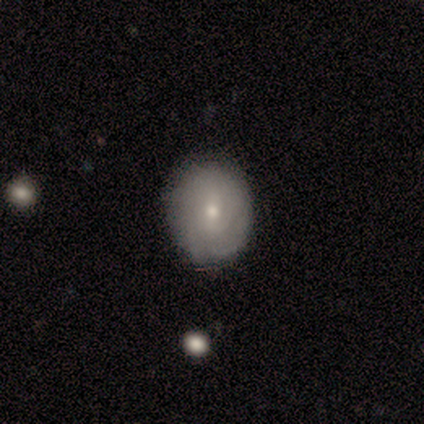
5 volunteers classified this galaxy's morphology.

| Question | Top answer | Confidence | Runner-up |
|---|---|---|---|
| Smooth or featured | smooth | 60% | featured or disk (40%) |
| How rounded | round | 67% | in between (33%) |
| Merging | none | 80% | minor disturbance (20%) |